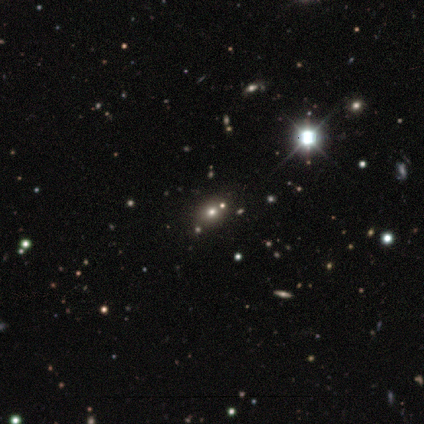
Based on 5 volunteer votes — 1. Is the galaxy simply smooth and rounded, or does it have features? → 60% star or artifact, 40% smooth, 0% featured or disk.